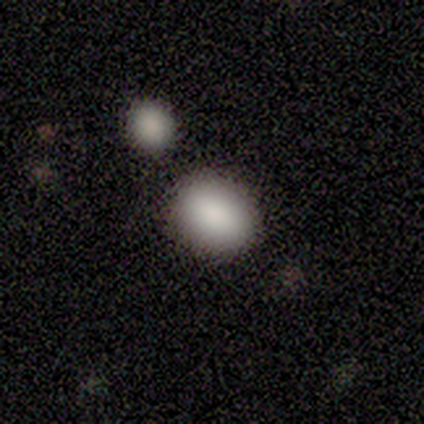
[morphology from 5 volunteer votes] smooth-or-featured: smooth: 100% | featured or disk: 0% | star or artifact: 0%
  how-rounded: in between: 60% | round: 40% | cigar-shaped: 0%
  merging: none: 100% | minor disturbance: 0% | major disturbance: 0% | merger: 0%